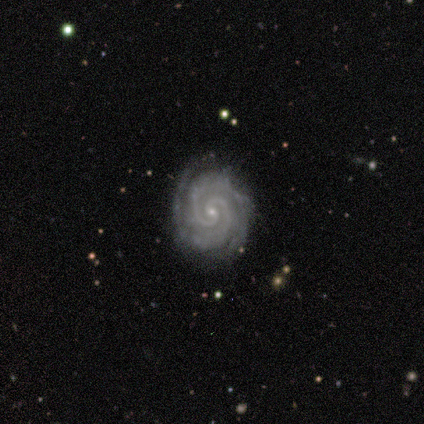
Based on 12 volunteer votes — Smooth or featured: featured or disk — 92% (star or artifact — 8%)
Edge-on disk: no — 100%
Bar: no — 100%
Spiral arms: yes — 100%
Spiral winding: tight — 82% (medium — 18%)
Spiral arm count: 2 — 100%
Bulge size: small — 91% (moderate — 9%)
Merging: none — 91% (minor disturbance — 9%)